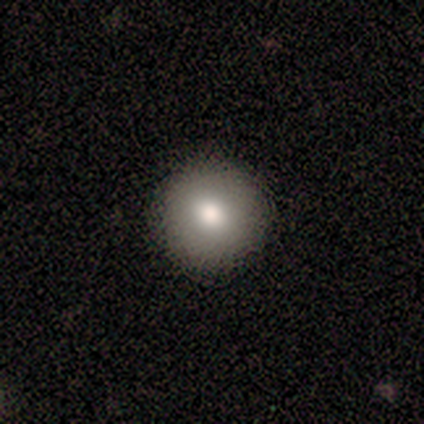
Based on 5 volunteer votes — This is clearly a smooth galaxy (80%). How rounded: clearly round (100%). Merging: clearly none (100%).